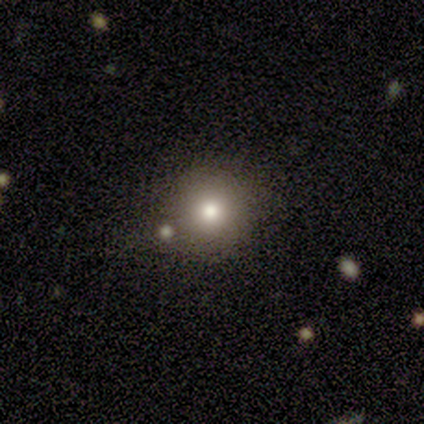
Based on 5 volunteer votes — This appears to be a smooth galaxy with no disk features (60%) that is round (100%). Merging: none (100%).